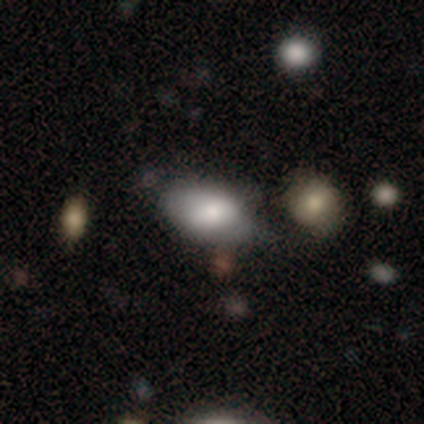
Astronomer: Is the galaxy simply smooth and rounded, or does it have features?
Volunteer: smooth — 74%.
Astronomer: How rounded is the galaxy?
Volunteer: in between — 89%.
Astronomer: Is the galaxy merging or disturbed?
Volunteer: none — 25% (runner-up: minor disturbance, 22%).